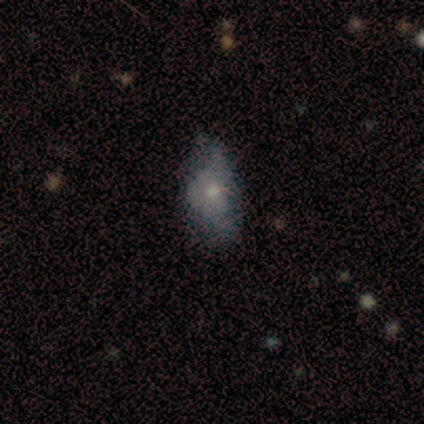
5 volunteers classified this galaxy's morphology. Smooth or featured: smooth — 80% (featured or disk — 20%)
How rounded: in between — 75% (cigar-shaped — 25%)
Merging: minor disturbance — 60% (none — 40%)